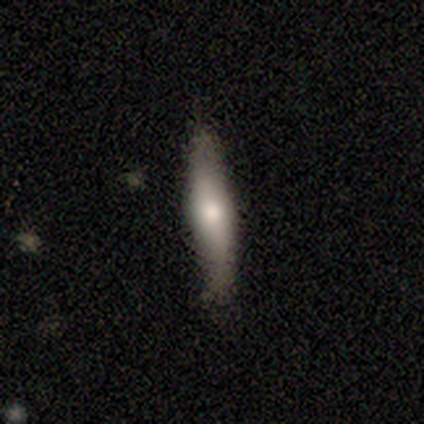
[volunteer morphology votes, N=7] This is possibly a featured or disk galaxy (57%). It is clearly viewed edge-on (100%). Edge-on bulge: possibly rounded (50%). Merging: likely none (71%).